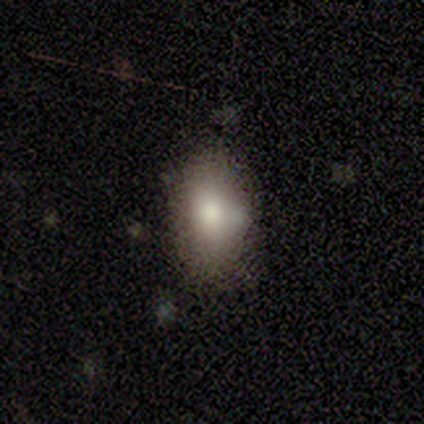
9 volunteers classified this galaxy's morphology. Smooth or featured: smooth — 100%
How rounded: in between — 100%
Merging: none — 89% (minor disturbance — 11%)